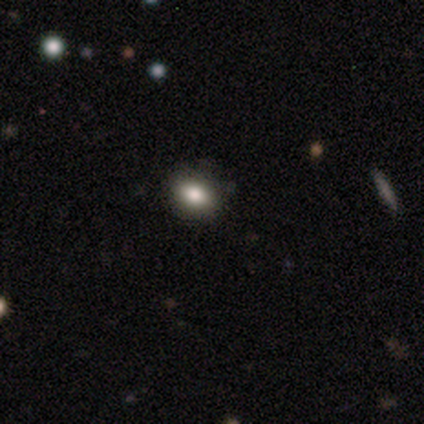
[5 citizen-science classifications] smooth 80%, star or artifact 20%, featured or disk 0%. Down the decision tree: how rounded — round (100%); merging — none (100%).